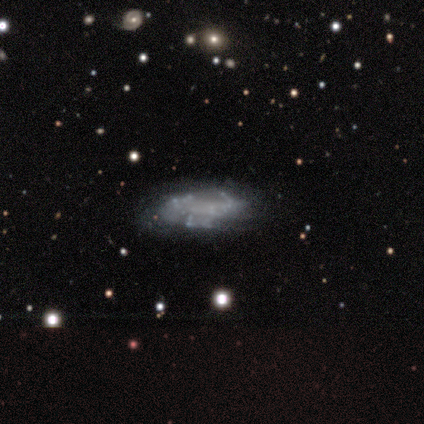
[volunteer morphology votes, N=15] Smooth or featured? 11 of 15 (73%) said featured or disk. Edge-on disk? 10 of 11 (91%) said no. Bar? 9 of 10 (90%) said no. Spiral arms? 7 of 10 (70%) said no. Bulge size? 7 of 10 (70%) said none. Merging? 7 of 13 (54%) said none.